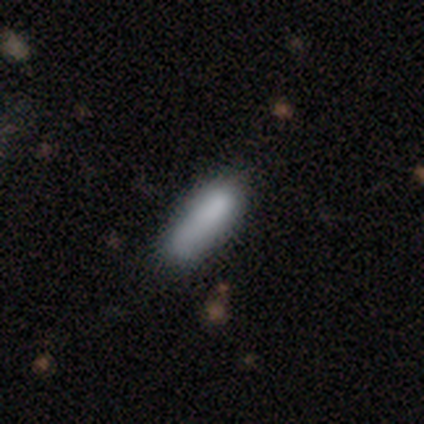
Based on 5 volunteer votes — A smooth galaxy with no disk features (60%) that is in between round and cigar-shaped (67%). Merging: none (50%, tied with minor disturbance).